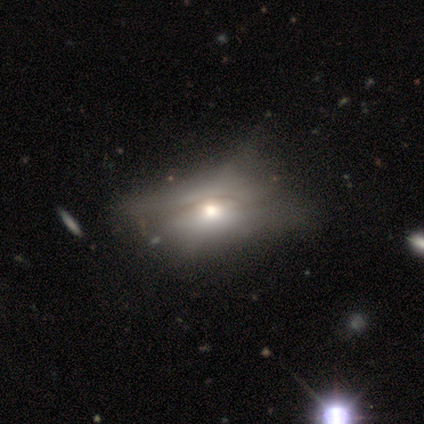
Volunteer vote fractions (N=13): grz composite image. It shows a smooth galaxy with no disk features (38%, tied with featured or disk) that is in between round and cigar-shaped (100%). Merging: minor disturbance (40%).